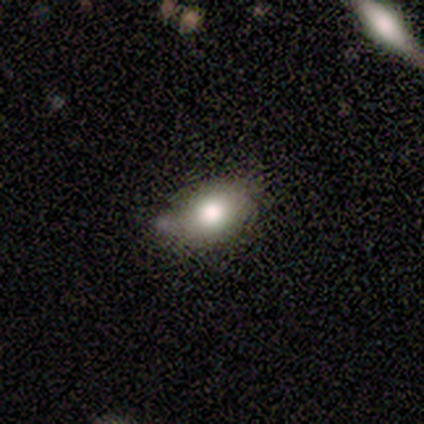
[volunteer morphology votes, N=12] Smooth or featured? smooth (67%)
How rounded? in between (100%)
Merging? minor disturbance (62%)